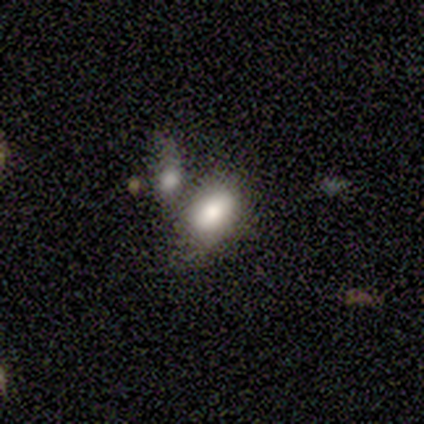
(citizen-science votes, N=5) Q: Smooth or featured?
A: smooth (80%); runner-up: featured or disk (20%)
Q: How rounded?
A: in between (100%)
Q: Merging?
A: none (60%); runner-up: minor disturbance (20%)